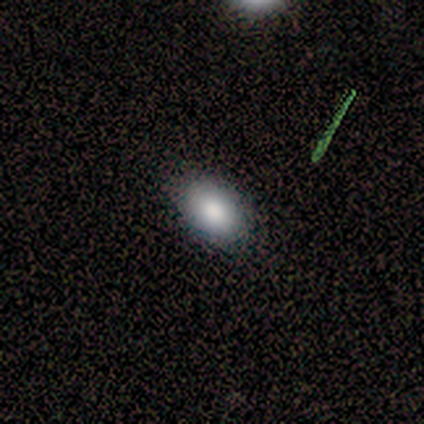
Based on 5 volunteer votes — Smooth or featured? 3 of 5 (60%) said smooth. How rounded? 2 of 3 (67%) said in between. Merging? 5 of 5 (100%) said none.